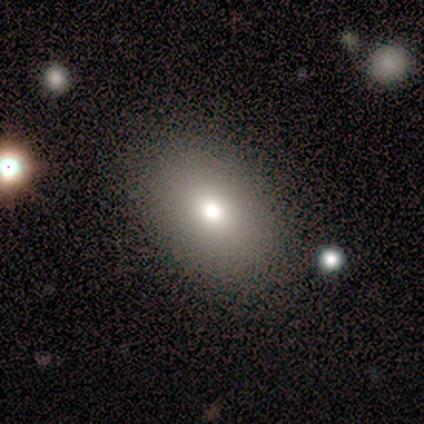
Smooth or featured: smooth — 80% (featured or disk — 20%)
How rounded: round — 50% (tied with in between — 50%)
Merging: none — 100%